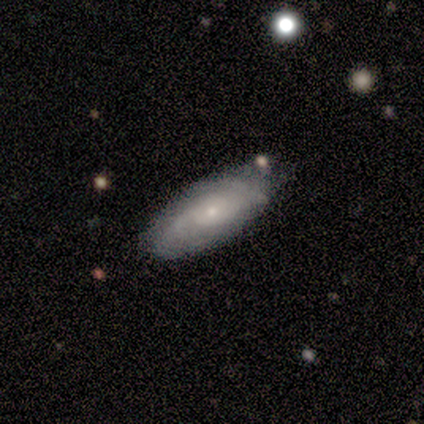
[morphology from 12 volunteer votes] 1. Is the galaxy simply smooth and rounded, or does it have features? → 67% smooth, 33% featured or disk, 0% star or artifact.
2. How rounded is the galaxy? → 88% in between, 12% cigar-shaped, 0% round.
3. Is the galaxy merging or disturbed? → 58% none, 25% minor disturbance, 17% major disturbance, 0% merger.